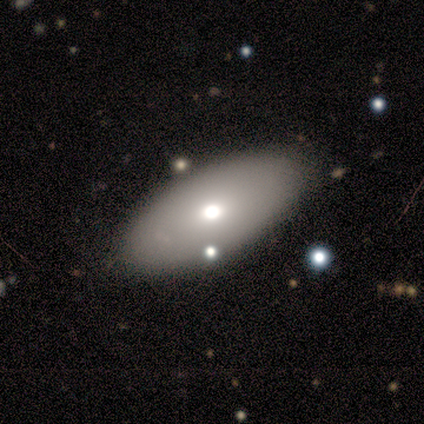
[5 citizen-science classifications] A smooth galaxy with no disk features (80%) that is in between round and cigar-shaped (100%).

Vote fractions:
- Smooth or featured? smooth: 80% / featured or disk: 20% / star or artifact: 0%
- How rounded? in between: 100% / round: 0% / cigar-shaped: 0%
- Merging? none: 100% / minor disturbance: 0% / major disturbance: 0% / merger: 0%